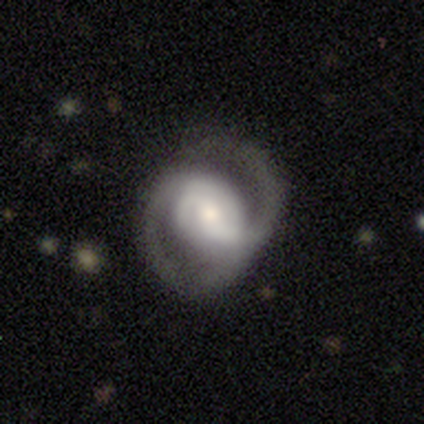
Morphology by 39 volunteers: Smooth or featured? featured or disk (79%)
Edge-on disk? no (97%)
Bar? weak (40%)
Spiral arms? yes (97%)
Spiral winding? medium (45%)
Spiral arm count? 2 (90%)
Bulge size? moderate (47%)
Merging? none (59%)